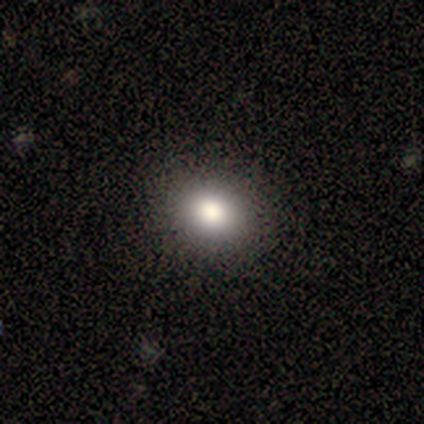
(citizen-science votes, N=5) Smooth or featured?
  - smooth: 80% *
  - star or artifact: 20%
  - featured or disk: 0%
How rounded?
  - in between: 75% *
  - round: 25%
  - cigar-shaped: 0%
Merging?
  - none: 75% *
  - minor disturbance: 25%
  - major disturbance: 0%
  - merger: 0%